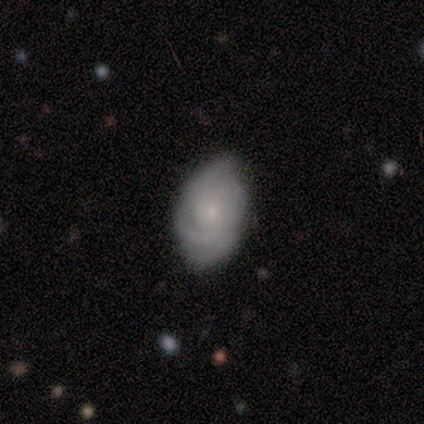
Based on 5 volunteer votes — This is marginally a smooth galaxy (40%, tied with featured or disk). How rounded: clearly in between (100%). Merging: possibly minor disturbance (50%).